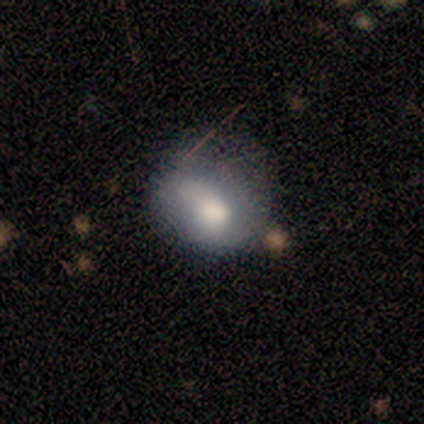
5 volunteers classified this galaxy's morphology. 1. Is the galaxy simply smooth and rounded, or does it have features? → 100% smooth, 0% featured or disk, 0% star or artifact.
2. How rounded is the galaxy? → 60% in between, 40% round, 0% cigar-shaped.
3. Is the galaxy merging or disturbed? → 80% none, 20% major disturbance, 0% minor disturbance, 0% merger.